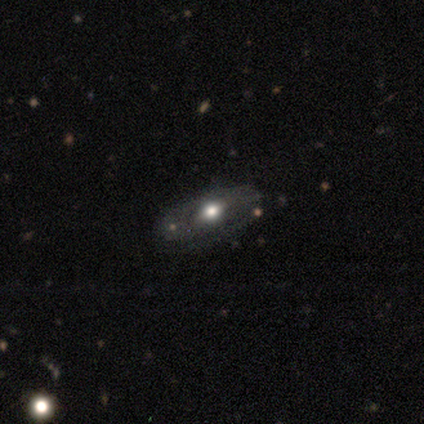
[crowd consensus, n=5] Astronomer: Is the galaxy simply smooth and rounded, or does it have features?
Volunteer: smooth — 60% (runner-up: featured or disk, 40%).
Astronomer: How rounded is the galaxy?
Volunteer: in between — 67%.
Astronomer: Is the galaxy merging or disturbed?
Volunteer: none — 80%.